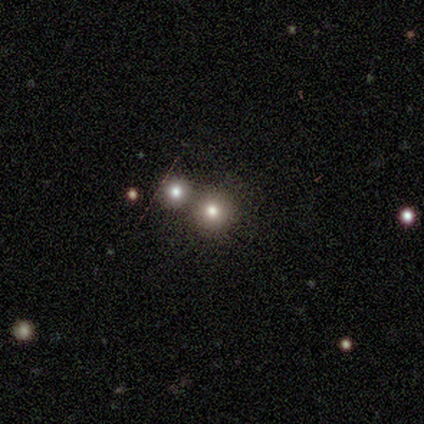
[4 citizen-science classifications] Smooth or featured? 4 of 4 (100%) said smooth. How rounded? 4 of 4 (100%) said round. Merging? 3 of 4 (75%) said none.